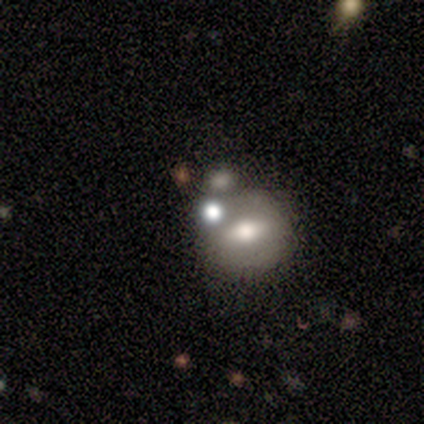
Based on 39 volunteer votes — Smooth or featured? 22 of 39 (56%) said smooth. How rounded? 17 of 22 (77%) said round. Merging? 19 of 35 (54%) said none.